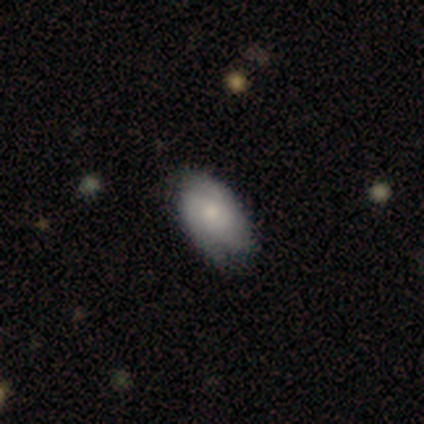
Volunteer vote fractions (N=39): smooth-or-featured: smooth: 49% | featured or disk: 46% | star or artifact: 5%
  how-rounded: in between: 95% | round: 5% | cigar-shaped: 0%
  merging: none: 62% | minor disturbance: 24% | major disturbance: 14% | merger: 0%